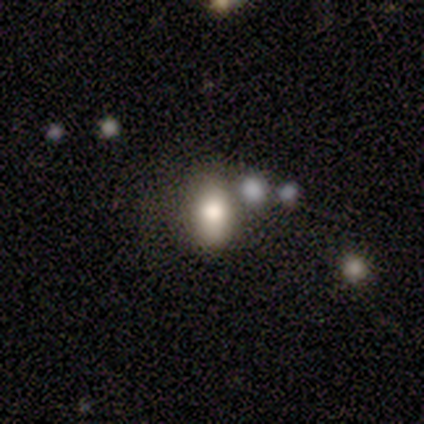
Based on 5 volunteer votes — This appears to be a smooth galaxy with no disk features (60%) that is in between round and cigar-shaped (100%). Merging: none (67%).